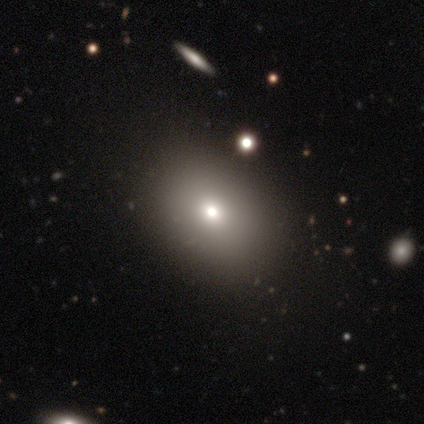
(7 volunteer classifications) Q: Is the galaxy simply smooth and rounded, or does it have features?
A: smooth — 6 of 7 (86%).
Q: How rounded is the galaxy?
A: in between — 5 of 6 (83%).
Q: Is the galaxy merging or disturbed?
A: none — 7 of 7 (100%).